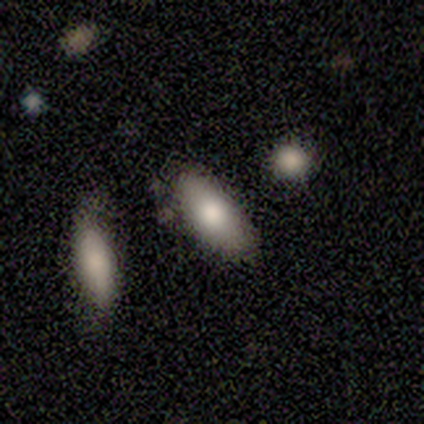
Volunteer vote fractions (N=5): smooth 100%, featured or disk 0%, star or artifact 0%. Down the decision tree: how rounded — in between (100%); merging — none (60%).